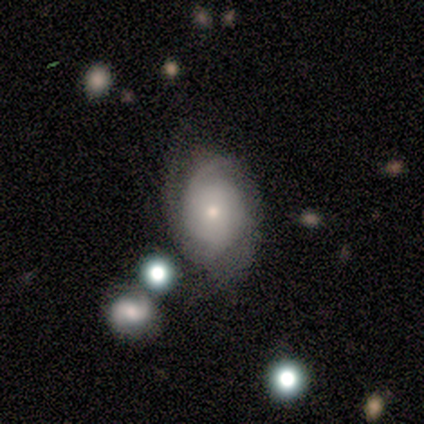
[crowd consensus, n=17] Smooth or featured?
  - featured or disk: 65% *
  - smooth: 18%
  - star or artifact: 18%
Edge-on disk?
  - no: 100% *
  - yes: 0%
Bar?
  - no: 82% *
  - weak: 18%
  - strong: 0%
Spiral arms?
  - yes: 82% *
  - no: 18%
Spiral winding?
  - tight: 44% *
  - medium: 33%
  - loose: 22%
Spiral arm count?
  - 2: 56% *
  - 3: 22%
  - 1: 11%
  - can't tell: 11%
  - 4: 0%
  - more than 4: 0%
Bulge size?
  - small: 55% *
  - moderate: 27%
  - dominant: 9%
  - none: 9%
  - large: 0%
Merging?
  - none: 64% *
  - minor disturbance: 21%
  - major disturbance: 7%
  - merger: 7%